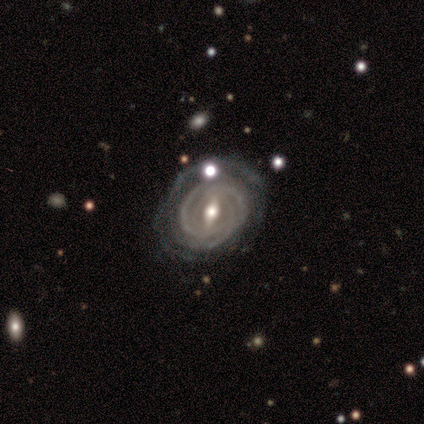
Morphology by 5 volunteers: Smooth or featured?
  - featured or disk: 100% *
  - smooth: 0%
  - star or artifact: 0%
Edge-on disk?
  - no: 80% *
  - yes: 20%
Bar?
  - strong: 75% *
  - no: 25%
  - weak: 0%
Spiral arms?
  - yes: 100% *
  - no: 0%
Spiral winding?
  - tight: 100% *
  - medium: 0%
  - loose: 0%
Spiral arm count?
  - can't tell: 75% *
  - 2: 25%
  - 1: 0%
  - 3: 0%
  - 4: 0%
  - more than 4: 0%
Bulge size?
  - moderate: 75% *
  - small: 25%
  - dominant: 0%
  - large: 0%
  - none: 0%
Merging?
  - none: 60% *
  - minor disturbance: 20%
  - major disturbance: 20%
  - merger: 0%